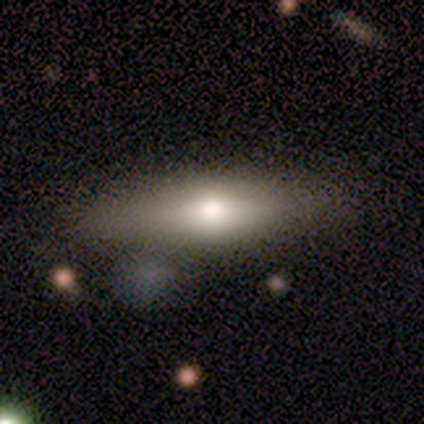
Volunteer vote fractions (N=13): Smooth or featured? smooth (62%)
How rounded? in between (50%, tied with cigar-shaped)
Merging? none (85%)